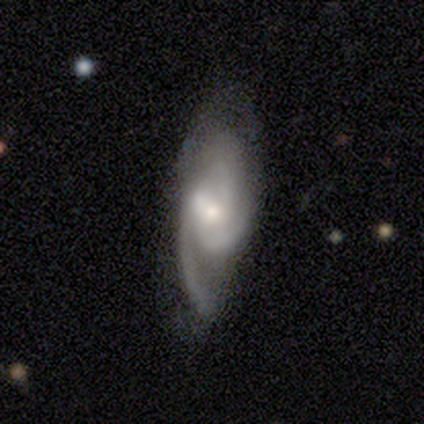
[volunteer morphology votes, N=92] featured or disk 85%, star or artifact 9%, smooth 7%. Down the decision tree: edge-on disk — no (94%); bar — no (58%); spiral arms — yes (99%); spiral arm count — 2 (42%); spiral winding — medium (54%); bulge size — small (56%); merging — none (65%).